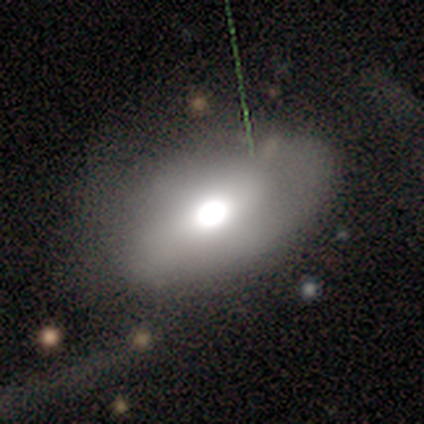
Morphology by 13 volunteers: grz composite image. It shows a smooth galaxy with no disk features (62%) that is in between round and cigar-shaped (88%). Merging: none (82%).